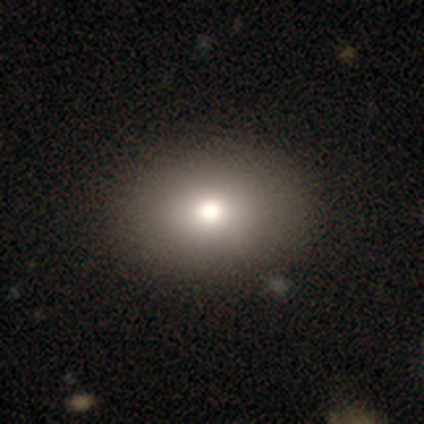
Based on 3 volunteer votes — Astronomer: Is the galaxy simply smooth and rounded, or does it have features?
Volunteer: smooth — 67%.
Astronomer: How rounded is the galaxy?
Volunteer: round — 50%, tied with in between at 50%.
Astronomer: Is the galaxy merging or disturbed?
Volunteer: none — 100%.